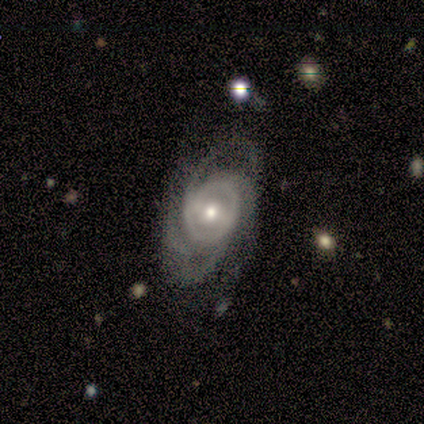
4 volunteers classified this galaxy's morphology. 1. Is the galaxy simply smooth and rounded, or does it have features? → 100% featured or disk, 0% smooth, 0% star or artifact.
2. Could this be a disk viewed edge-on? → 100% no, 0% yes.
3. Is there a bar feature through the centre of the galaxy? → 50% weak (tied), 50% no (tied), 0% strong.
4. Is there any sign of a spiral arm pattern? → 100% yes, 0% no.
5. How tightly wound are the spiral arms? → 50% tight (tied), 50% loose (tied), 0% medium.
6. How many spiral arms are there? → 50% 1, 25% 2, 25% can't tell, 0% 3, 0% 4, 0% more than 4.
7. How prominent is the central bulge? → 75% moderate, 25% small, 0% dominant, 0% large, 0% none.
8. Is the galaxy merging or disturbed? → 50% none, 25% minor disturbance, 25% major disturbance, 0% merger.